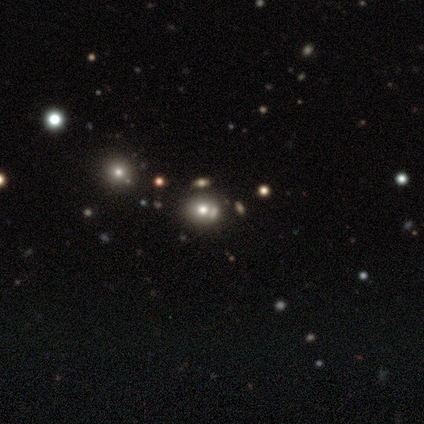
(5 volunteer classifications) Smooth or featured? smooth (60%)
How rounded? round (100%)
Merging? none (75%)